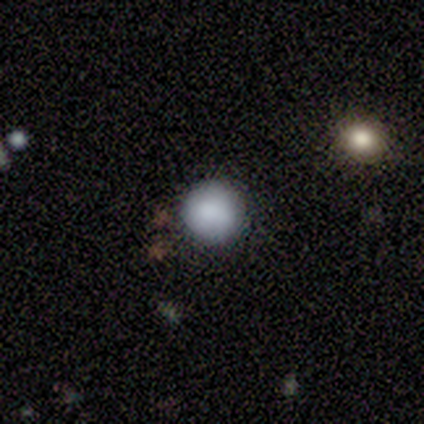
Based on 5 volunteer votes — This appears to be a smooth galaxy with no disk features (100%) that is round (100%). Merging: none (80%).